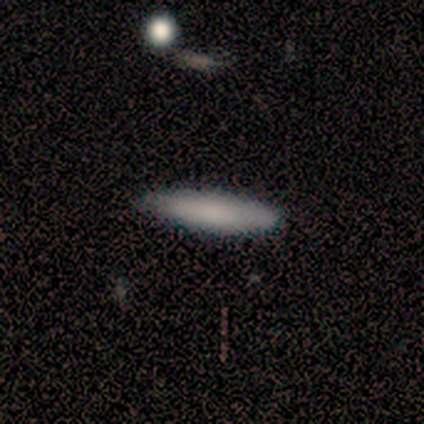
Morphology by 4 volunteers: smooth 100%, featured or disk 0%, star or artifact 0%. Down the decision tree: how rounded — cigar-shaped (100%); merging — none (75%).